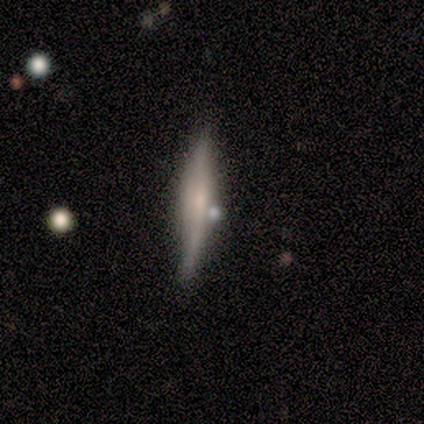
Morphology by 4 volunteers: A featured or disk galaxy (75%) viewed edge-on (100%) with a boxy central bulge (33%, tied with none and rounded).

Vote fractions:
- Smooth or featured? featured or disk: 75% / smooth: 25% / star or artifact: 0%
- Edge-on disk? yes: 100% / no: 0%
- Edge-on bulge? boxy: 33% (tied) / none: 33% (tied) / rounded: 33% (tied)
- Merging? none: 100% / minor disturbance: 0% / major disturbance: 0% / merger: 0%